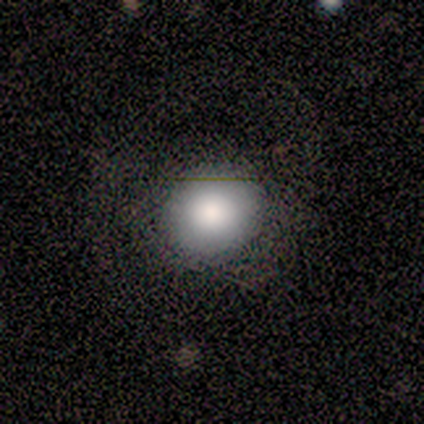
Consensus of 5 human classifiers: Volunteers were most divided on "how rounded": round: 75%, in between: 25%, cigar-shaped: 0%. More confident: merging — none (100%); smooth or featured — smooth (80%).